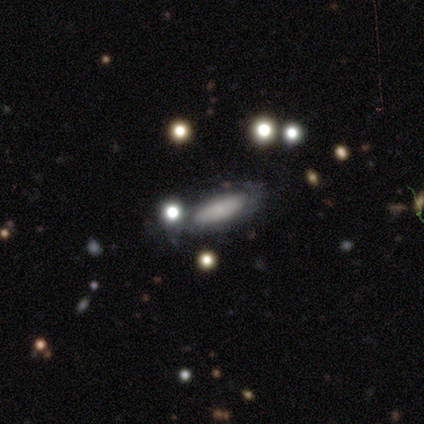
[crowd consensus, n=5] This is likely a smooth galaxy (60%). How rounded: clearly cigar-shaped (100%). Merging: clearly none (100%).